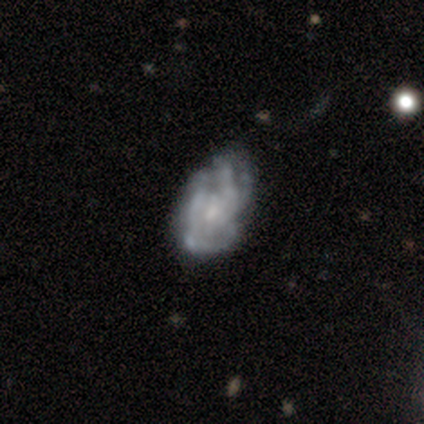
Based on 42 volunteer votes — Volunteers were most divided on "merging" (2-way tie): none: 41%, minor disturbance: 41%, major disturbance: 13%, merger: 5%. More confident: edge-on disk — no (90%); spiral arms — yes (75%); smooth or featured — featured or disk (74%); bar — no (71%); bulge size — small (68%); spiral arm count — can't tell (67%); spiral winding — tight (57%).